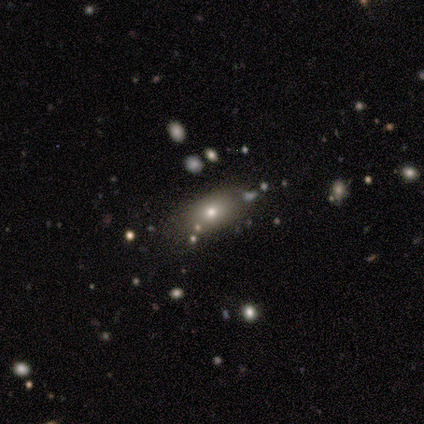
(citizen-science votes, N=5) smooth-or-featured: smooth: 60% | star or artifact: 40% | featured or disk: 0%
  how-rounded: in between: 67% | cigar-shaped: 33% | round: 0%
  merging: none: 67% | merger: 33% | minor disturbance: 0% | major disturbance: 0%